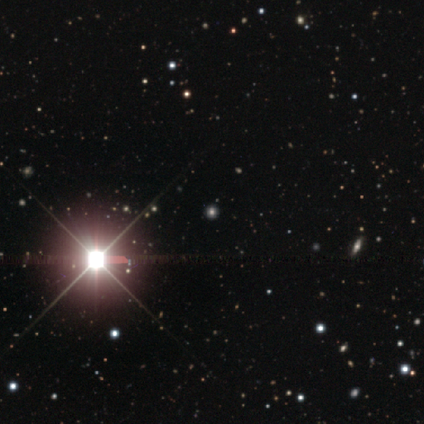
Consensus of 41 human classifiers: Morphology: type=star or artifact (83%).